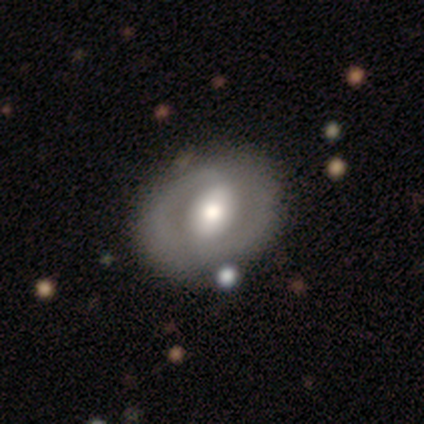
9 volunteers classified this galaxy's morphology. Overall: featured or disk (67%). Edge-on disk: no (100%). Bar: no (67%). Spiral arms: no (67%; yes 33%). Bulge size: large (67%; moderate 33%). Merging: none (75%).